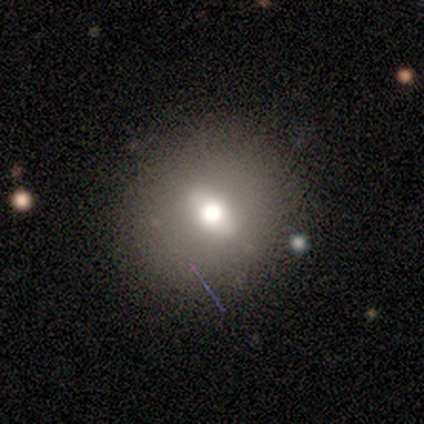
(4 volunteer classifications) Volunteers were most divided on "how rounded" (2-way tie): round: 50%, in between: 50%, cigar-shaped: 0%. More confident: merging — minor disturbance (67%); smooth or featured — smooth (50%).